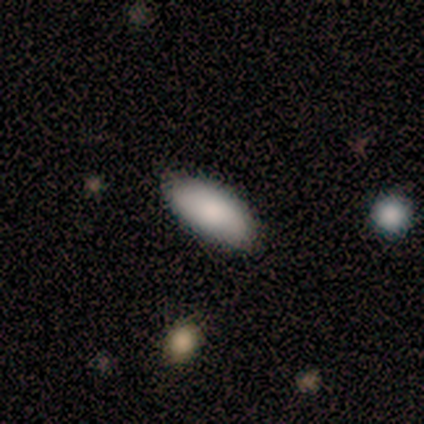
Morphology: type=smooth (80%); roundness=in between (100%); merging=none (100%).